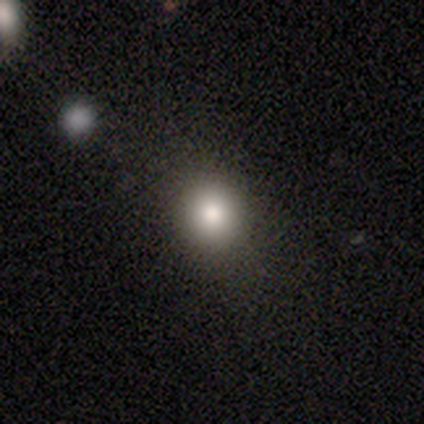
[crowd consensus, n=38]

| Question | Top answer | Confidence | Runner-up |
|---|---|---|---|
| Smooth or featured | smooth | 89% | featured or disk (8%) |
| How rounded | round | 76% | in between (21%) |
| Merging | none | 68% | minor disturbance (14%) |